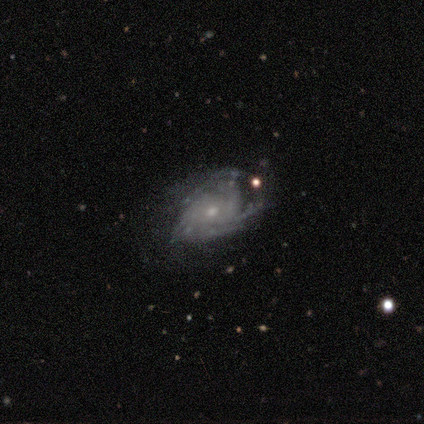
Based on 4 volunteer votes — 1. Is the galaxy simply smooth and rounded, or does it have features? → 100% featured or disk, 0% smooth, 0% star or artifact.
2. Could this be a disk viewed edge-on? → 100% no, 0% yes.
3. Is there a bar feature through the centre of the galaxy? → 75% no, 25% weak, 0% strong.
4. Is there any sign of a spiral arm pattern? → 100% yes, 0% no.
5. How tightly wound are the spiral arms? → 100% tight, 0% medium, 0% loose.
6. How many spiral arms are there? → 50% can't tell, 25% 3, 25% 4, 0% 1, 0% 2, 0% more than 4.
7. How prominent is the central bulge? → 100% small, 0% dominant, 0% large, 0% moderate, 0% none.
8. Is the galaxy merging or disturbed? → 50% minor disturbance, 25% none, 25% major disturbance, 0% merger.